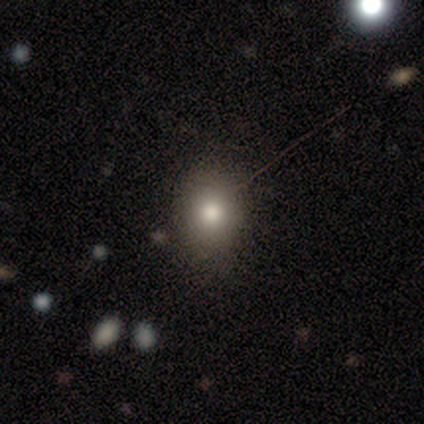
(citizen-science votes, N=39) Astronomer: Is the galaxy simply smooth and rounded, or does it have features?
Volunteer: smooth — 79%.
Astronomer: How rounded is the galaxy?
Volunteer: round — 65%.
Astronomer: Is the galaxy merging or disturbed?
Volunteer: none — 79%.